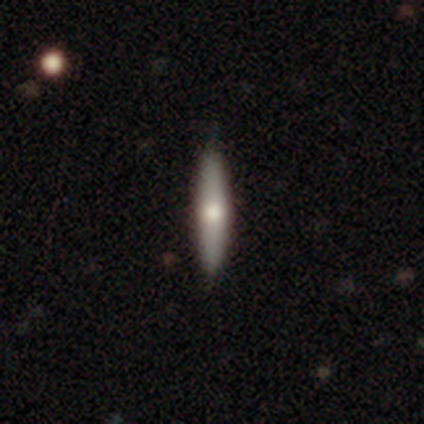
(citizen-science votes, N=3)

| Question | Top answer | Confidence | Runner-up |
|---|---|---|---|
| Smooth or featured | smooth | 67% | star or artifact (33%) |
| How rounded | cigar-shaped | 100% | — |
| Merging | none | 100% | — |